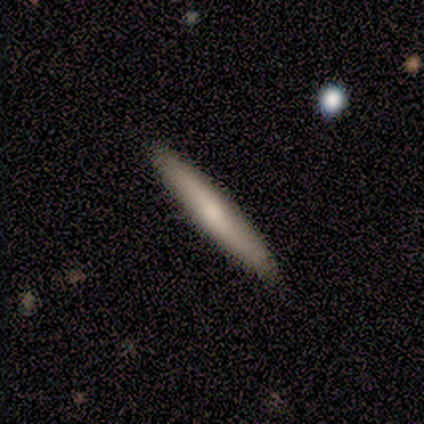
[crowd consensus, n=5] Smooth or featured? 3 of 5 (60%) said featured or disk. Edge-on disk? 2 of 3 (67%) said yes. Edge-on bulge? 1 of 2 (50%, tied with rounded) said none. Merging? 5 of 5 (100%) said none.